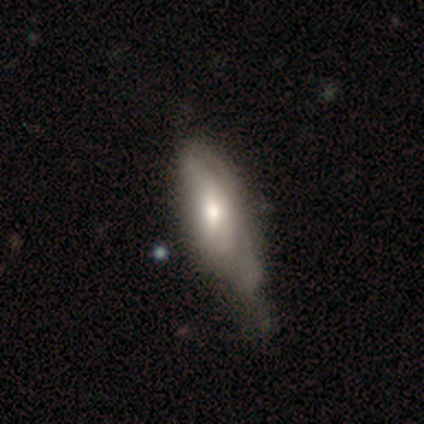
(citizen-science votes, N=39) A smooth galaxy with no disk features (51%) that is in between round and cigar-shaped (75%).

Vote fractions:
- Smooth or featured? smooth: 51% / featured or disk: 49% / star or artifact: 0%
- How rounded? in between: 75% / cigar-shaped: 25% / round: 0%
- Merging? major disturbance: 26% / none: 23% / minor disturbance: 23% / merger: 5%